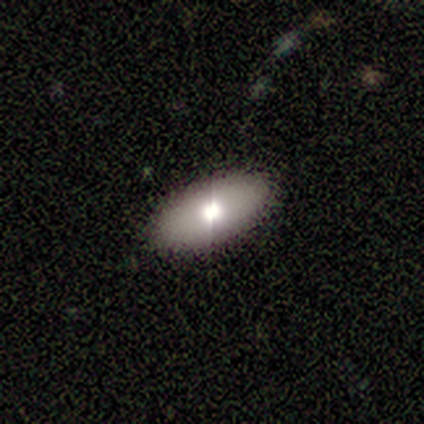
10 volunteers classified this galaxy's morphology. A smooth galaxy with no disk features (80%) that is in between round and cigar-shaped (100%).

Vote fractions:
- Smooth or featured? smooth: 80% / featured or disk: 10% / star or artifact: 10%
- How rounded? in between: 100% / round: 0% / cigar-shaped: 0%
- Merging? none: 89% / minor disturbance: 11% / major disturbance: 0% / merger: 0%